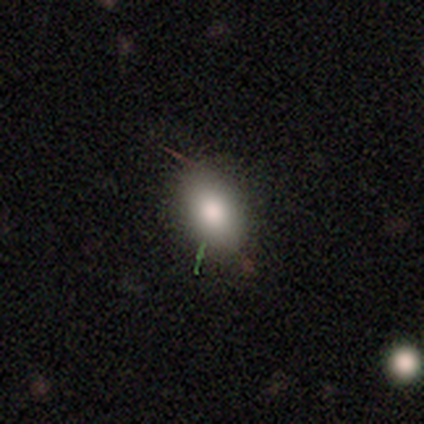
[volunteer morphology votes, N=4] smooth 50%, featured or disk 25%, star or artifact 25%. Down the decision tree: how rounded — round (50%, tied with in between); merging — none (100%).